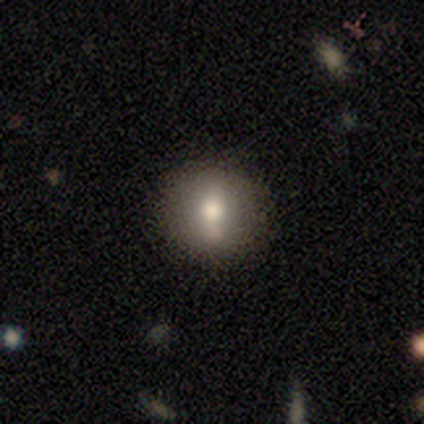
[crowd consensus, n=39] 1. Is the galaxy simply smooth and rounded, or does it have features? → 72% smooth, 18% featured or disk, 10% star or artifact.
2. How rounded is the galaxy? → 93% round, 7% in between, 0% cigar-shaped.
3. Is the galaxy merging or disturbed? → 89% none, 11% minor disturbance, 0% major disturbance, 0% merger.